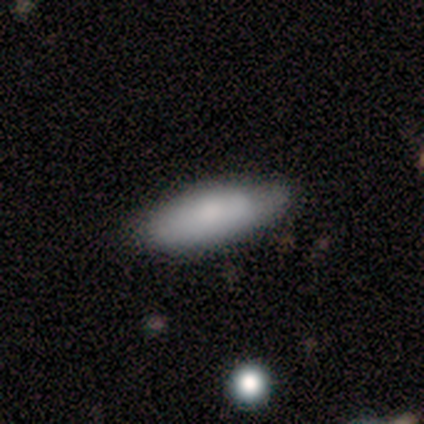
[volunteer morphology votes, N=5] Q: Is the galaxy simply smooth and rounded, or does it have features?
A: smooth — 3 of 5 (60%).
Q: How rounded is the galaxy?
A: in between — 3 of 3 (100%).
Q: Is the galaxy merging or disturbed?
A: none — 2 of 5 (40%, tied with minor disturbance).